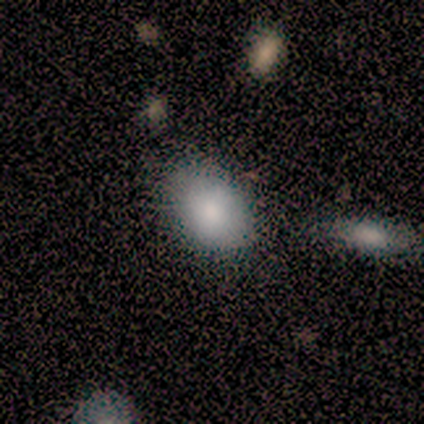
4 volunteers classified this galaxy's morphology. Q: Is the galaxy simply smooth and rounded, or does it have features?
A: smooth — 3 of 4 (75%).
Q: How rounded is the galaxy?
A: in between — 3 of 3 (100%).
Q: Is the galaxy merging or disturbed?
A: none — 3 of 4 (75%).